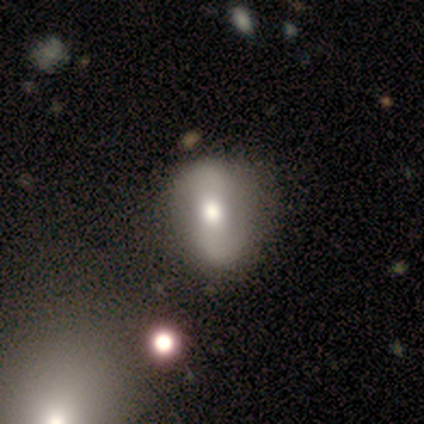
Morphology: type=featured or disk (60%); edge-on=no (100%); bar=weak (100%); spiral arms=yes (100%); winding=loose (67%); arm count=2 (100%); bulge=moderate (100%); merging=none (60%).